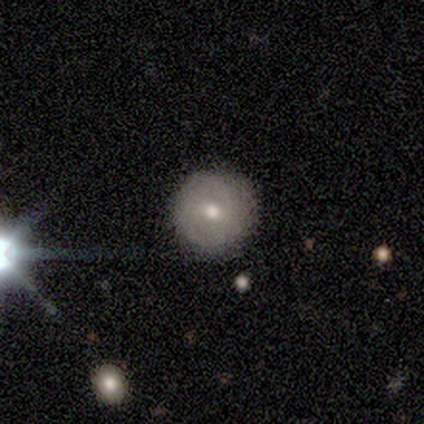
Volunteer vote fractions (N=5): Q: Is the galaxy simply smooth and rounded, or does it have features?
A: featured or disk — 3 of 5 (60%).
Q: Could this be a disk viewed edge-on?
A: no — 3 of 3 (100%).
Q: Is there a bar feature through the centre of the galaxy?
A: weak — 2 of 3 (67%).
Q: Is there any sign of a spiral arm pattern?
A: yes — 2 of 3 (67%).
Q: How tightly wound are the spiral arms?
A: tight — 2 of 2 (100%).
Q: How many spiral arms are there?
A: more than 4 — 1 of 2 (50%, tied with can't tell).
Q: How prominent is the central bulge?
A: small — 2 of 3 (67%).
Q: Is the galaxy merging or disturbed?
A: none — 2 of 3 (67%).